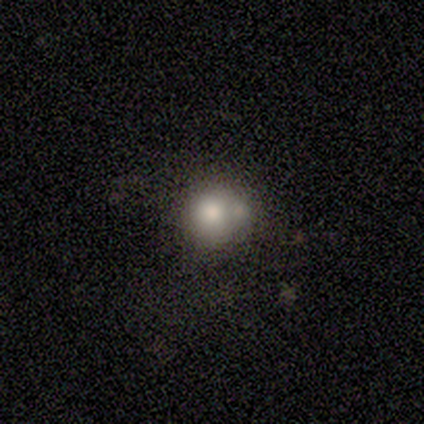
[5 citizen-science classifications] Smooth or featured?
  - smooth: 100% *
  - featured or disk: 0%
  - star or artifact: 0%
How rounded?
  - round: 100% *
  - in between: 0%
  - cigar-shaped: 0%
Merging?
  - merger: 80% *
  - none: 20%
  - minor disturbance: 0%
  - major disturbance: 0%